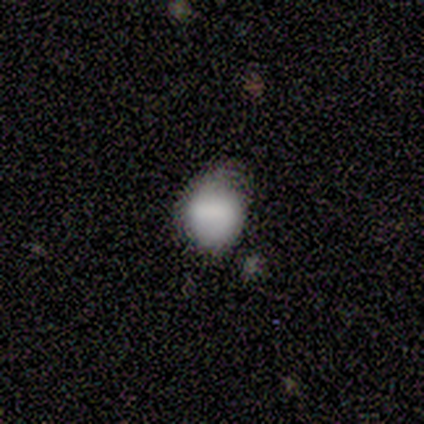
Q: Smooth or featured?
A: smooth (100%)
Q: How rounded?
A: round (88%); runner-up: in between (12%)
Q: Merging?
A: none (88%); runner-up: minor disturbance (12%)